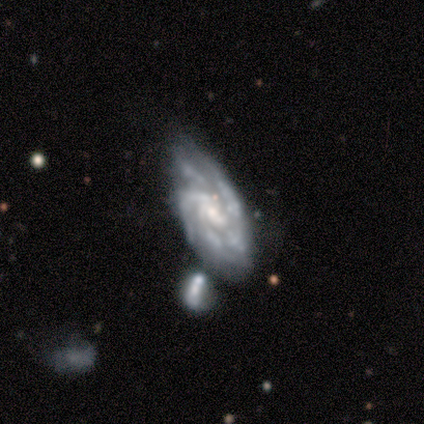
Smooth or featured: featured or disk — 100%
Edge-on disk: no — 80% (yes — 20%)
Bar: no — 100%
Spiral arms: yes — 100%
Spiral winding: tight — 75% (medium — 25%)
Spiral arm count: 2 — 25% (tied with 4 — 25%; more than 4 — 25%; can't tell — 25%)
Bulge size: moderate — 100%
Merging: none — 40% (minor disturbance — 20%)